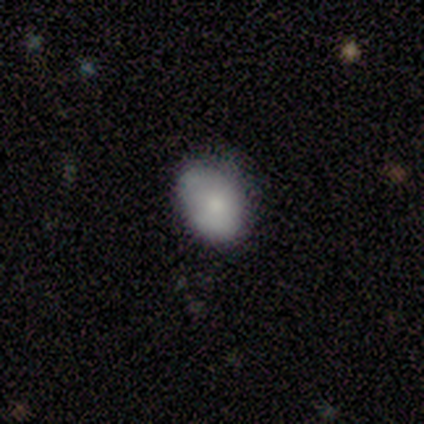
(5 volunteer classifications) smooth 100%, featured or disk 0%, star or artifact 0%. Down the decision tree: how rounded — in between (80%); merging — minor disturbance (60%).